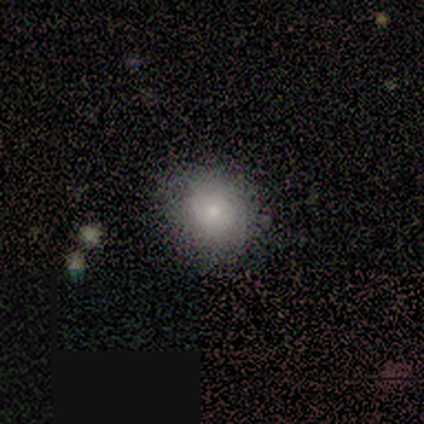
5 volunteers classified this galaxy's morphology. A smooth galaxy with no disk features (80%) that is round (100%). Merging: none (80%).